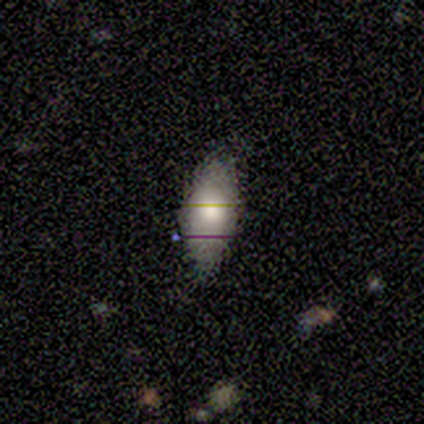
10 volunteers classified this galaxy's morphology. This is likely a smooth galaxy (60%). How rounded: clearly in between (100%). Merging: clearly none (90%).